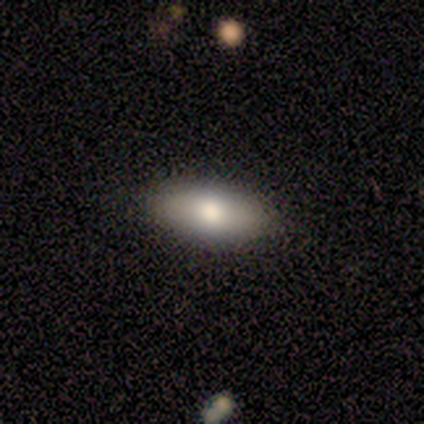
A smooth galaxy with no disk features (100%) that is in between round and cigar-shaped (80%). Merging: none (100%).